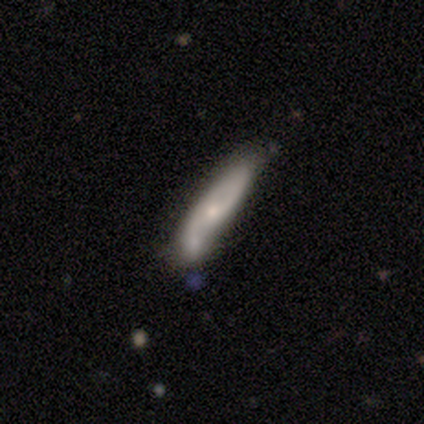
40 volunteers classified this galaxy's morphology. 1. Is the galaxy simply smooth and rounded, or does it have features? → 70% featured or disk, 30% smooth, 0% star or artifact.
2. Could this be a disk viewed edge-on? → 71% no, 29% yes.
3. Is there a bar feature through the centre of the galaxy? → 55% no, 35% weak, 10% strong.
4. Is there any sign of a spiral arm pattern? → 85% yes, 15% no.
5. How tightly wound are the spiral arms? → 65% medium, 18% tight, 18% loose.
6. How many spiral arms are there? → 65% 2, 18% 1, 12% can't tell, 6% 3, 0% 4, 0% more than 4.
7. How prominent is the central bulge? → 55% small, 30% moderate, 5% dominant, 5% large, 5% none.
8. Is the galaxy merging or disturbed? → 40% none, 22% minor disturbance, 8% major disturbance, 0% merger.